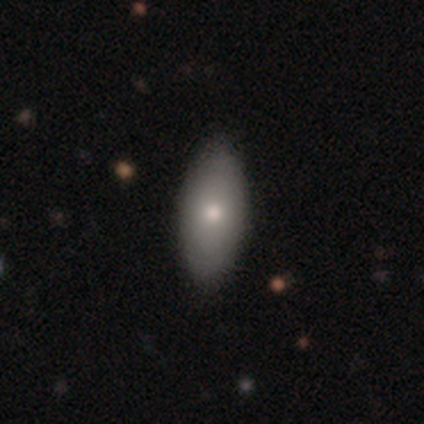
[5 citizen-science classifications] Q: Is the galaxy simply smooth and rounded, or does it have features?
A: smooth — 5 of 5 (100%).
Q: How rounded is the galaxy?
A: in between — 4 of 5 (80%).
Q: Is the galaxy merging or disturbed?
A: none — 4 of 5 (80%).